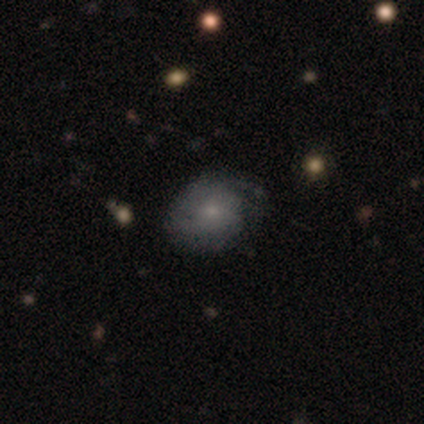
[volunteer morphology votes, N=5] This appears to be a featured or disk galaxy (80%) with no bar (100%), 2 (33%, tied with 3 and can't tell) tight (100%) spiral arms (100%) and a small central bulge (100%). Merging: minor disturbance (60%).